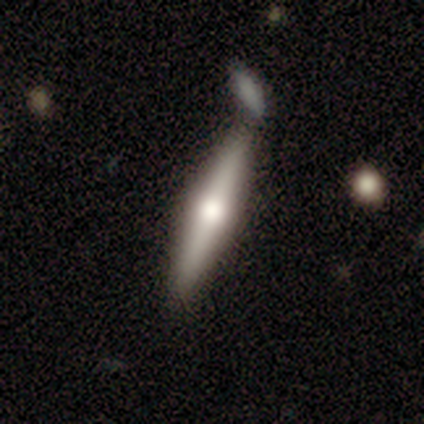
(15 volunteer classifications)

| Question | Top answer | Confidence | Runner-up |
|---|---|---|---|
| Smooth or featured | featured or disk | 67% | smooth (27%) |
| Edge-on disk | yes | 100% | — |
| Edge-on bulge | rounded | 100% | — |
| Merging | none | 64% | merger (21%) |